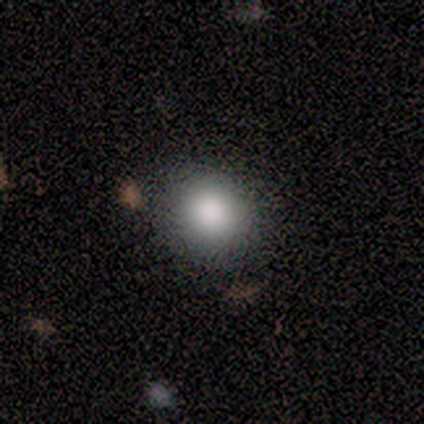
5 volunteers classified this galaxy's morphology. Volunteers were most divided on "how rounded": round: 60%, in between: 40%, cigar-shaped: 0%. More confident: smooth or featured — smooth (100%); merging — none (100%).